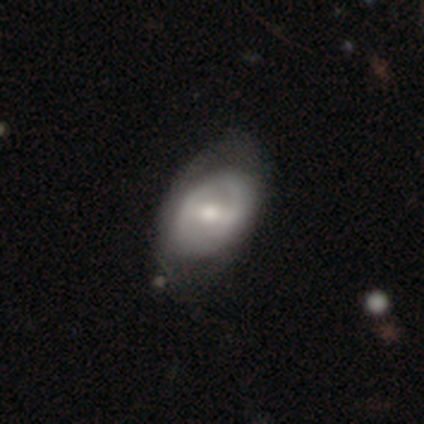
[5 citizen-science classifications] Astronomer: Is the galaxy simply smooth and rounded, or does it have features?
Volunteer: smooth — 40%, tied with featured or disk at 40%.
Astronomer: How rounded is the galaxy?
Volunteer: in between — 100%.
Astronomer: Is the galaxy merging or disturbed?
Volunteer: none — 75%.